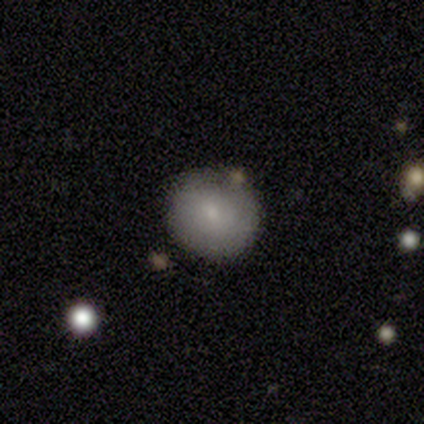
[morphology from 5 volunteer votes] Smooth or featured: smooth — 100%
How rounded: round — 60% (in between — 40%)
Merging: none — 80% (major disturbance — 20%)